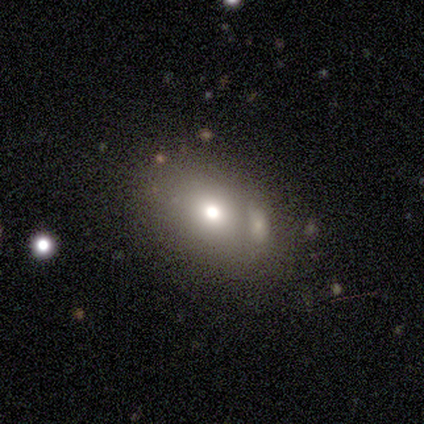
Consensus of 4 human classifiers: This is possibly a smooth galaxy (50%). How rounded: clearly in between (100%). Merging: marginally minor disturbance (33%, tied with major disturbance and merger).